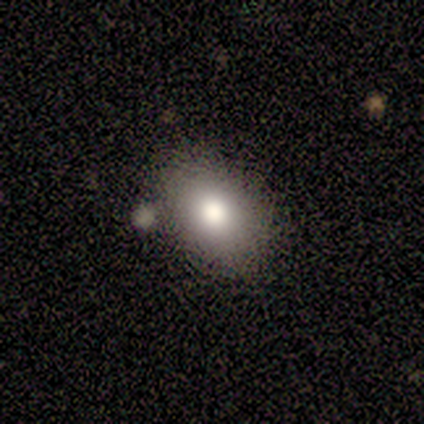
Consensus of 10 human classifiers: This appears to be a smooth galaxy with no disk features (90%) that is in between round and cigar-shaped (78%). Merging: none (80%).